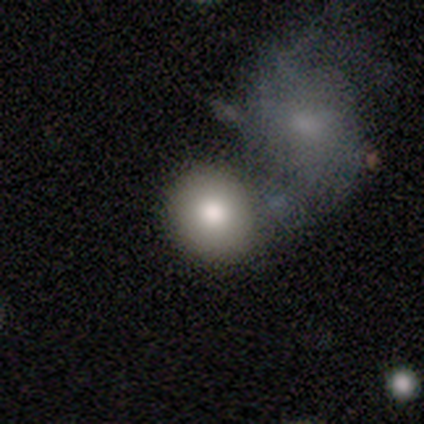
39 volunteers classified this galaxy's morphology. A smooth galaxy with no disk features (74%) that is round (86%). Merging: merger (41%).